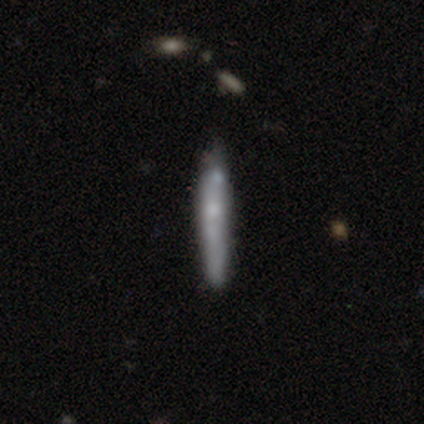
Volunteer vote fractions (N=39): Morphology: type=smooth (59%); roundness=cigar-shaped (96%); merging=none (36%).